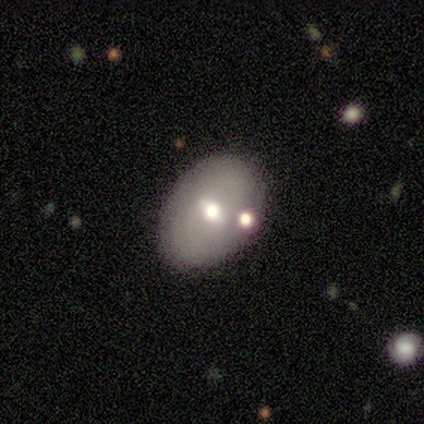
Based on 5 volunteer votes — Smooth or featured? 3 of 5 (60%) said featured or disk. Edge-on disk? 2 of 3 (67%) said no. Bar? 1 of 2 (50%, tied with no) said weak. Spiral arms? 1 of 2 (50%, tied with no) said yes. Spiral winding? 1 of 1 (100%) said tight. Spiral arm count? 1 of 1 (100%) said 3. Bulge size? 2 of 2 (100%) said moderate. Merging? 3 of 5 (60%) said none.